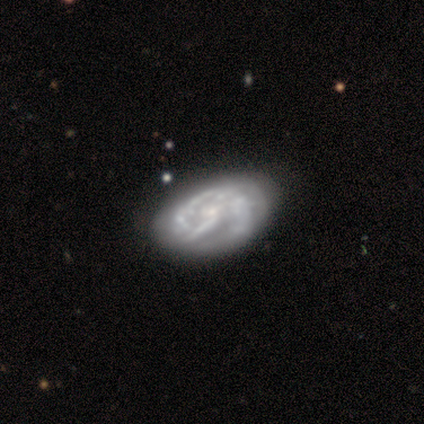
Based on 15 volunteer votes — smooth_or_featured: featured or disk (p=0.87) [alt: smooth p=0.13]
disk_edge_on: no (p=1.00)
bar: no (p=0.77) [alt: weak p=0.15]
has_spiral_arms: yes (p=0.92) [alt: no p=0.08]
spiral_winding: tight (p=0.58) [alt: loose p=0.25]
spiral_arm_count: can't tell (p=0.42) [alt: 1 p=0.33]
bulge_size: small (p=0.46) [alt: moderate p=0.38]
merging: none (p=0.53) [alt: major disturbance p=0.27]